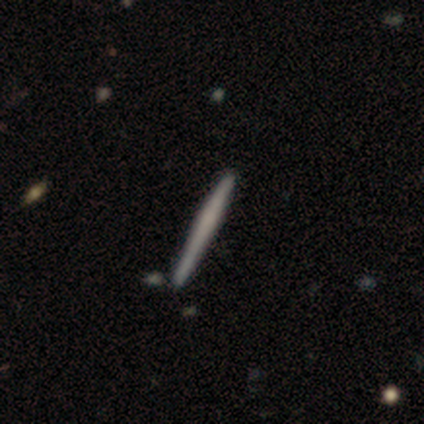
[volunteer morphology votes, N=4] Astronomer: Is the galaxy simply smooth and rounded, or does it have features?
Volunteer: featured or disk — 100%.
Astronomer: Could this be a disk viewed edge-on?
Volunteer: yes — 100%.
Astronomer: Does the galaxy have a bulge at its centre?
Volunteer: none — 75%.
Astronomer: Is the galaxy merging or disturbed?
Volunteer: none — 50%, tied with minor disturbance at 50%.